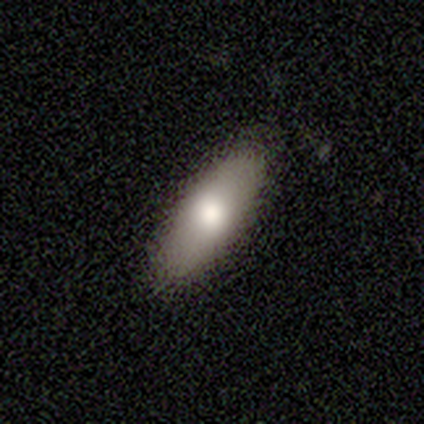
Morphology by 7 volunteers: Volunteers were most divided on "how rounded": in between: 57%, cigar-shaped: 43%, round: 0%. More confident: smooth or featured — smooth (100%); merging — none (100%).